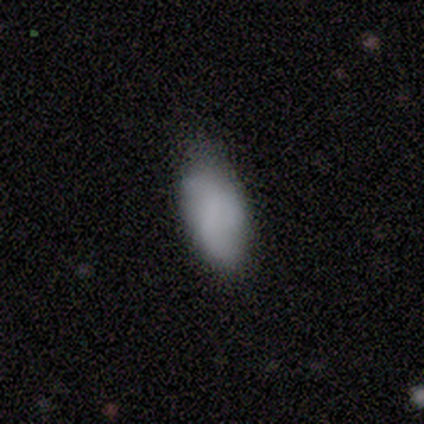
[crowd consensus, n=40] Smooth or featured? smooth (68%)
How rounded? in between (93%)
Merging? none (59%)